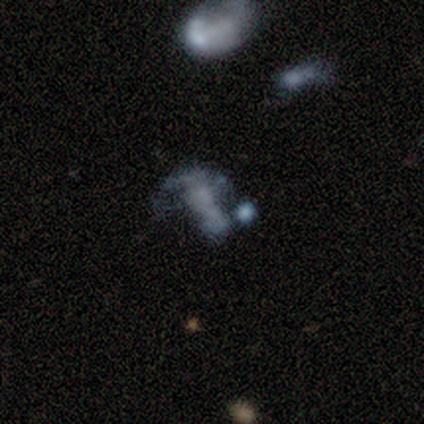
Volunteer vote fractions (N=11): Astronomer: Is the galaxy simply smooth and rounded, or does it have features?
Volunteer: featured or disk — 64%.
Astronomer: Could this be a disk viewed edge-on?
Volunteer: no — 100%.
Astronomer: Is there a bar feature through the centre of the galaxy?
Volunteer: no — 71%.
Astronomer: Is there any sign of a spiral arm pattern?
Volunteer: no — 86%.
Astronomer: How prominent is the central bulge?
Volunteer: none — 71%.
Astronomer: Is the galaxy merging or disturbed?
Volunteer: none — 50%, tied with major disturbance at 50%.